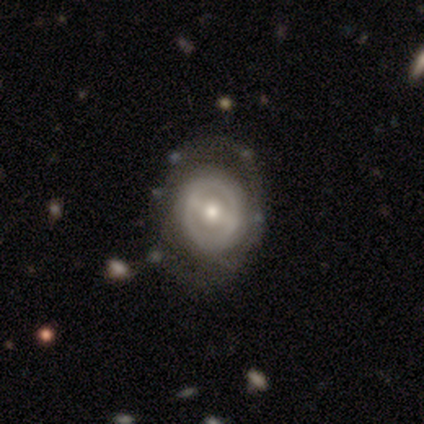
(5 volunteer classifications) smooth_or_featured: featured or disk (p=0.60) [alt: smooth p=0.40]
disk_edge_on: no (p=1.00)
bar: strong (p=0.33) [tied with: weak p=0.33, no p=0.33]
has_spiral_arms: no (p=1.00)
bulge_size: moderate (p=1.00)
merging: none (p=0.40) [tied with: minor disturbance p=0.40]